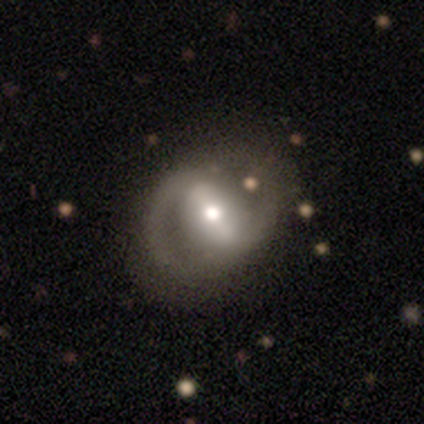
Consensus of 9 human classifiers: A featured or disk galaxy (100%) with a strong bar (88%), 2 (100%) medium (57%) spiral arms (88%) and a moderate central bulge (88%).

Vote fractions:
- Smooth or featured? featured or disk: 100% / smooth: 0% / star or artifact: 0%
- Edge-on disk? no: 89% / yes: 11%
- Bar? strong: 88% / weak: 12% / no: 0%
- Spiral arms? yes: 88% / no: 12%
- Spiral winding? medium: 57% / loose: 29% / tight: 14%
- Spiral arm count? 2: 100% / 1: 0% / 3: 0% / 4: 0% / more than 4: 0% / can't tell: 0%
- Bulge size? moderate: 88% / large: 12% / dominant: 0% / small: 0% / none: 0%
- Merging? none: 89% / minor disturbance: 11% / major disturbance: 0% / merger: 0%